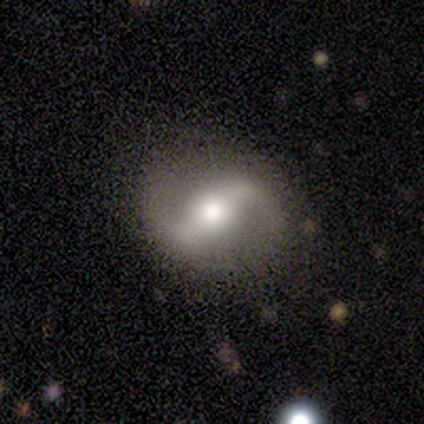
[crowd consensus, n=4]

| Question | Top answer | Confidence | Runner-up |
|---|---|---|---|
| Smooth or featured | featured or disk | 75% | smooth (25%) |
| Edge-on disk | no | 100% | — |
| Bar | weak | 67% | strong (33%) |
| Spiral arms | yes | 100% | — |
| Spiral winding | loose | 100% | — |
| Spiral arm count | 2 | 100% | — |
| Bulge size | large | 67% | moderate (33%) |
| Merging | none | 75% | minor disturbance (25%) |